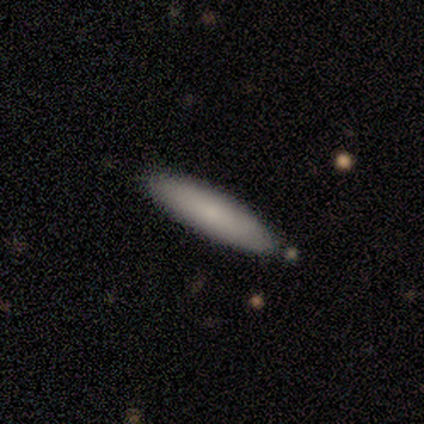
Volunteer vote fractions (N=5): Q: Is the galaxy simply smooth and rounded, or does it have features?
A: smooth — 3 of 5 (60%).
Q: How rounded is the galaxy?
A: cigar-shaped — 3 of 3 (100%).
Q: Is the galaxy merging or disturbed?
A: none — 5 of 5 (100%).